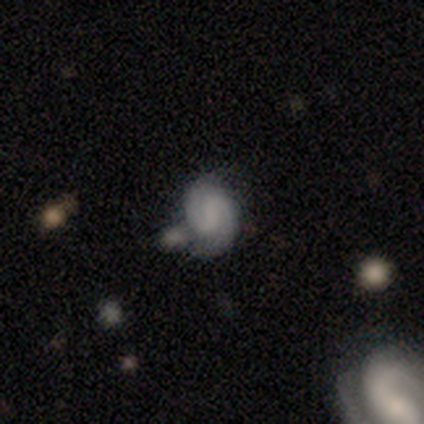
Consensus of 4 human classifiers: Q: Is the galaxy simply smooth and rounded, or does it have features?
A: featured or disk — 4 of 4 (100%).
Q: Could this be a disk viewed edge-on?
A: no — 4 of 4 (100%).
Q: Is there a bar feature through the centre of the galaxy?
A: weak — 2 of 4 (50%, tied with no).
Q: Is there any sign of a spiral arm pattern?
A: yes — 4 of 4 (100%).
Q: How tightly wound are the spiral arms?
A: tight — 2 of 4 (50%, tied with medium).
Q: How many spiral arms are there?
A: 2 — 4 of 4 (100%).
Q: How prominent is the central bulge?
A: small — 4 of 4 (100%).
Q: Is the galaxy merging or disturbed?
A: none — 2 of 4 (50%).